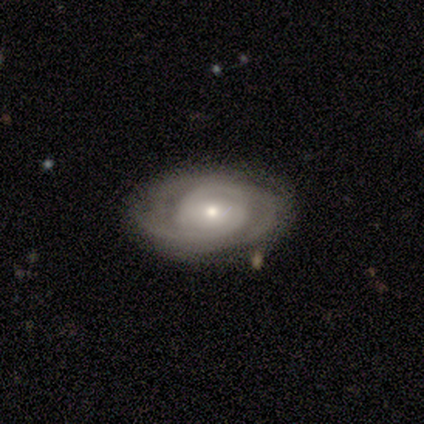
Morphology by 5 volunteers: smooth_or_featured: featured or disk (p=1.00)
disk_edge_on: no (p=1.00)
bar: no (p=0.60) [alt: strong p=0.20]
has_spiral_arms: yes (p=1.00)
spiral_winding: tight (p=0.40) [tied with: medium p=0.40]
spiral_arm_count: 2 (p=0.40) [tied with: 3 p=0.40]
bulge_size: small (p=0.80) [alt: moderate p=0.20]
merging: none (p=1.00)